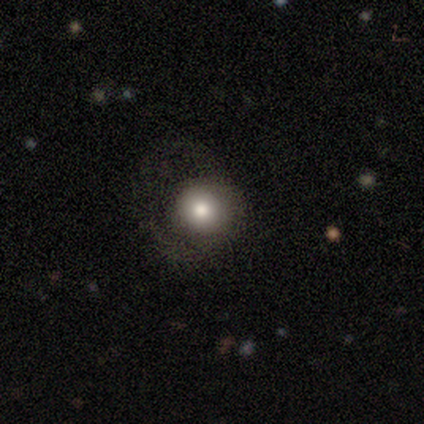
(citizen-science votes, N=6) A smooth galaxy with no disk features (100%) that is round (100%).

Vote fractions:
- Smooth or featured? smooth: 100% / featured or disk: 0% / star or artifact: 0%
- How rounded? round: 100% / in between: 0% / cigar-shaped: 0%
- Merging? none: 83% / major disturbance: 17% / minor disturbance: 0% / merger: 0%